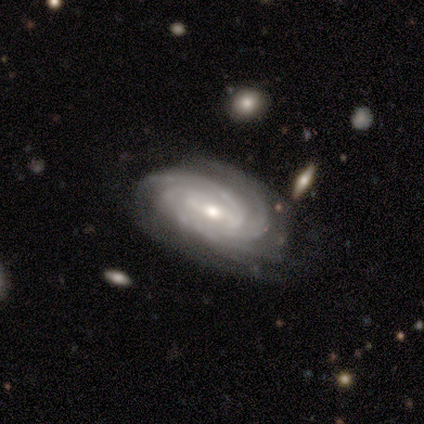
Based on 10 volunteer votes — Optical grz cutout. It shows a featured or disk galaxy (100%) with no bar (50%), 3 (30%, tied with 4) tight (80%) spiral arms (100%) and a moderate central bulge (50%, tied with small). Merging: none (80%).